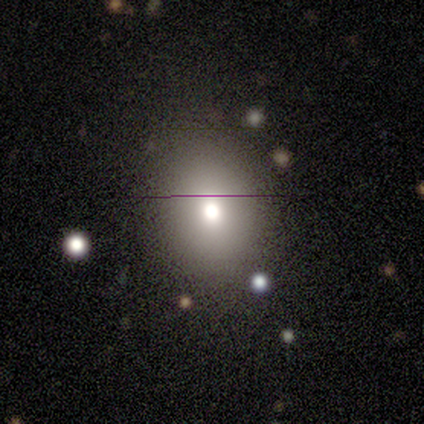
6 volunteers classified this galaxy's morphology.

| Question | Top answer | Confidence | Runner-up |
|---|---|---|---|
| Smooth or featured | smooth | 100% | — |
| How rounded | round | 50% | tied: in between (50%) |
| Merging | none | 50% | tied: minor disturbance (50%) |